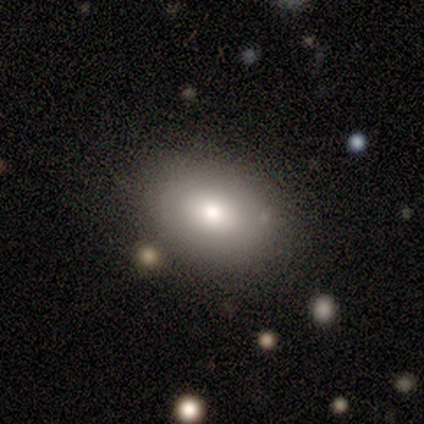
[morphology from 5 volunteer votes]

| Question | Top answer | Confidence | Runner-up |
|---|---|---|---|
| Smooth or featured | smooth | 80% | featured or disk (20%) |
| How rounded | in between | 75% | round (25%) |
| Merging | none | 100% | — |